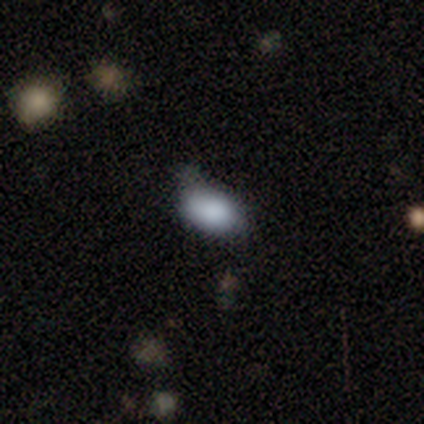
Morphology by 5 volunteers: Smooth or featured?
  - smooth: 80% *
  - featured or disk: 20%
  - star or artifact: 0%
How rounded?
  - in between: 75% *
  - round: 25%
  - cigar-shaped: 0%
Merging?
  - minor disturbance: 60% *
  - none: 40%
  - major disturbance: 0%
  - merger: 0%